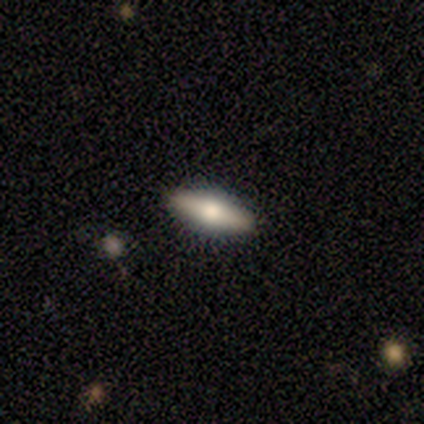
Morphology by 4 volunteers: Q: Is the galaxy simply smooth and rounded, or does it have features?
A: smooth — 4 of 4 (100%).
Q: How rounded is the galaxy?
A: in between — 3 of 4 (75%).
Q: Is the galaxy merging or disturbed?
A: none — 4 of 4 (100%).